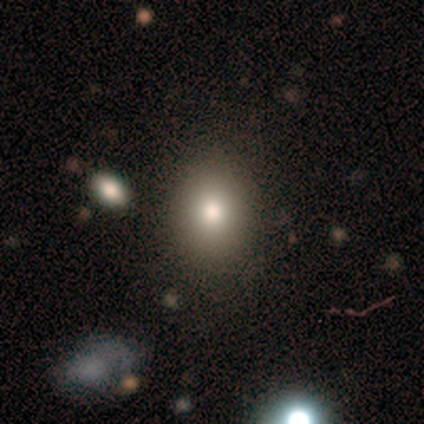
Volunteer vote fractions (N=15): smooth_or_featured: smooth (p=0.80) [alt: featured or disk p=0.13]
how_rounded: in between (p=0.58) [alt: round p=0.42]
merging: none (p=0.79) [alt: minor disturbance p=0.21]